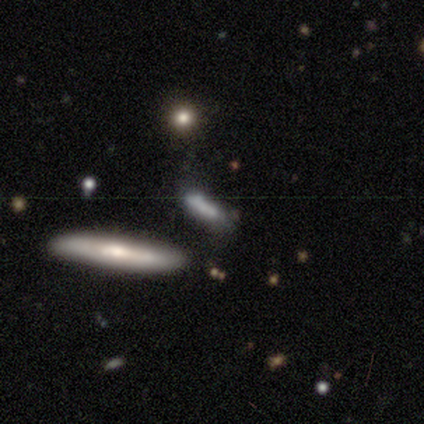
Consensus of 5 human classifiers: smooth_or_featured: smooth (p=0.60) [alt: featured or disk p=0.40]
how_rounded: cigar-shaped (p=0.67) [alt: in between p=0.33]
merging: none (p=0.40) [tied with: minor disturbance p=0.40]